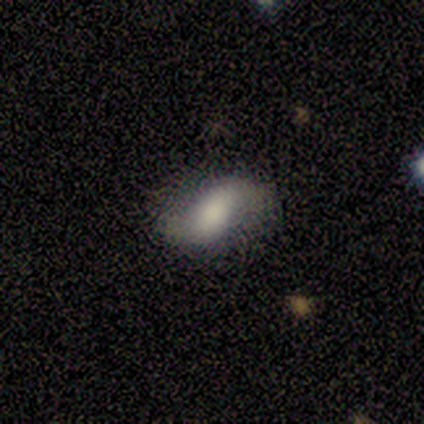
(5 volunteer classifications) Smooth or featured: featured or disk — 60% (smooth — 40%)
Edge-on disk: no — 100%
Bar: no — 67% (strong — 33%)
Spiral arms: yes — 67% (no — 33%)
Spiral winding: loose — 100%
Spiral arm count: 2 — 100%
Bulge size: large — 67% (moderate — 33%)
Merging: none — 100%